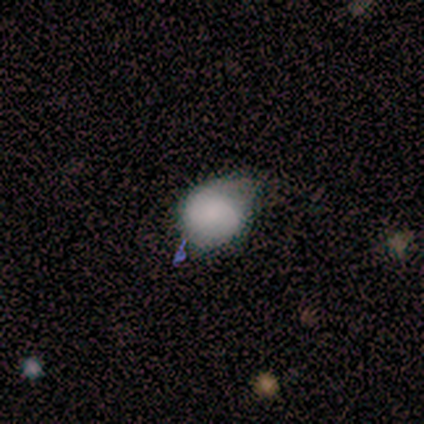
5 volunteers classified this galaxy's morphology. Smooth or featured? smooth (100%)
How rounded? round (100%)
Merging? none (40%, tied with minor disturbance)